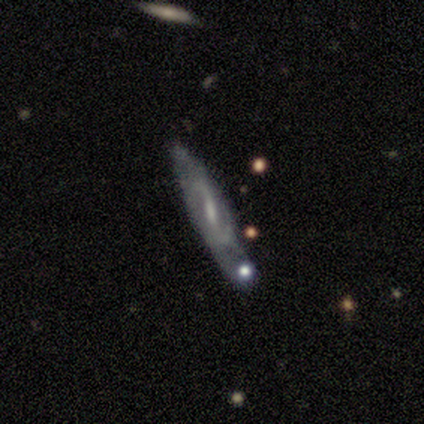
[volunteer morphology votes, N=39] Smooth or featured: featured or disk — 82% (smooth — 10%)
Edge-on disk: no — 69% (yes — 31%)
Bar: weak — 55% (strong — 45%)
Spiral arms: yes — 95% (no — 5%)
Spiral winding: loose — 48% (medium — 43%)
Spiral arm count: 2 — 71% (can't tell — 29%)
Bulge size: small — 50% (moderate — 27%)
Merging: merger — 31% (none — 28%)